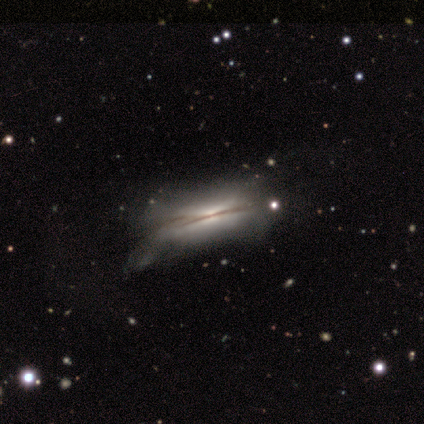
This appears to be a featured or disk galaxy (60%) viewed edge-on (100%) with a rounded central bulge (67%). Merging: minor disturbance (60%).